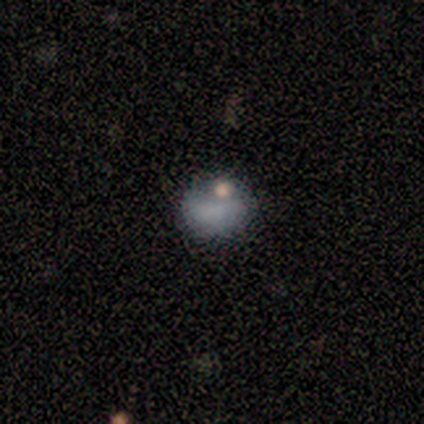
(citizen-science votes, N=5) Overall: smooth (60%; featured or disk 40%). How rounded: in between (67%; round 33%). Merging: none (60%; minor disturbance 40%).